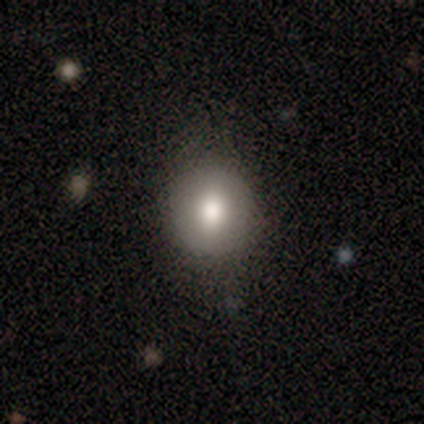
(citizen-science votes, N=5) Volunteers were most divided on "how rounded": in between: 80%, round: 20%, cigar-shaped: 0%. More confident: smooth or featured — smooth (100%); merging — none (100%).